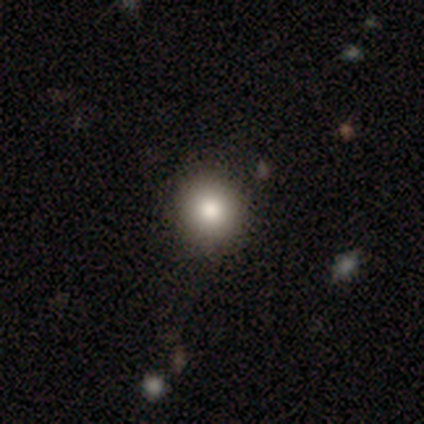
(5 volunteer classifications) Smooth or featured: smooth — 100%
How rounded: round — 100%
Merging: none — 80% (major disturbance — 20%)